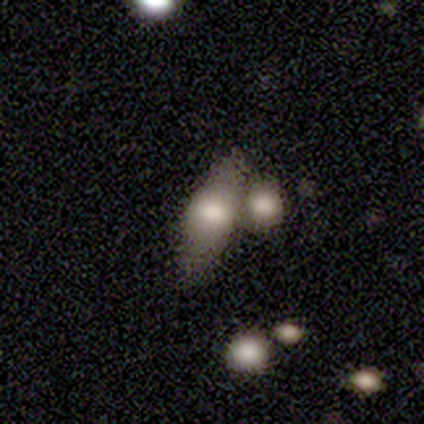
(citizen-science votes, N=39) Q: Smooth or featured?
A: smooth (79%); runner-up: featured or disk (21%)
Q: How rounded?
A: in between (87%); runner-up: cigar-shaped (13%)
Q: Merging?
A: merger (46%); runner-up: none (36%)